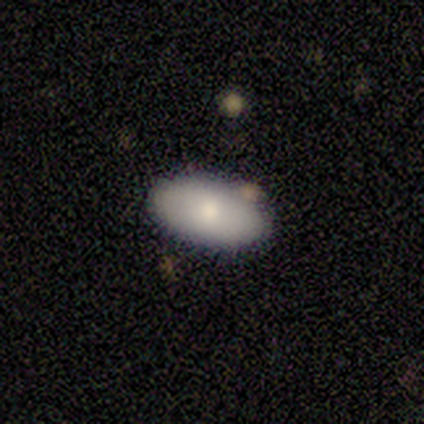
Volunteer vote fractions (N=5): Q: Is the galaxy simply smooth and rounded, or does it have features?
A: smooth — 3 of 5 (60%).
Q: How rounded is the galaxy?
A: in between — 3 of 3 (100%).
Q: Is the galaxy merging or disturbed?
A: none — 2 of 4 (50%).